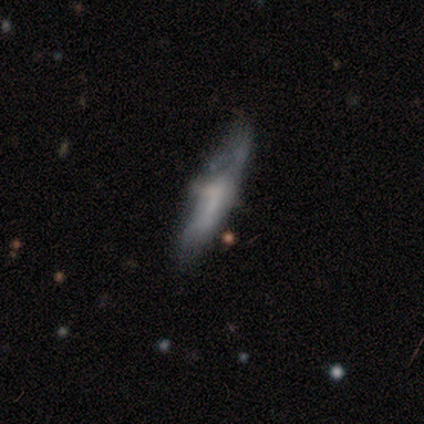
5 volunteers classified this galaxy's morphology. Smooth or featured?
  - featured or disk: 60% *
  - smooth: 20%
  - star or artifact: 20%
Edge-on disk?
  - yes: 67% *
  - no: 33%
Edge-on bulge?
  - boxy: 50% * (tied)
  - rounded: 50% * (tied)
  - none: 0%
Merging?
  - none: 75% *
  - major disturbance: 25%
  - minor disturbance: 0%
  - merger: 0%